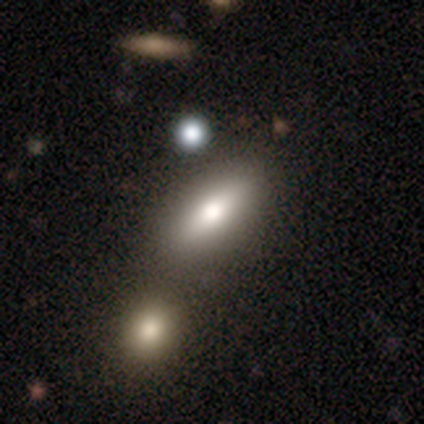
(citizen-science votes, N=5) Overall: smooth (40%, tied with featured or disk). How rounded: cigar-shaped (100%). Merging: minor disturbance (50%; none 25%).